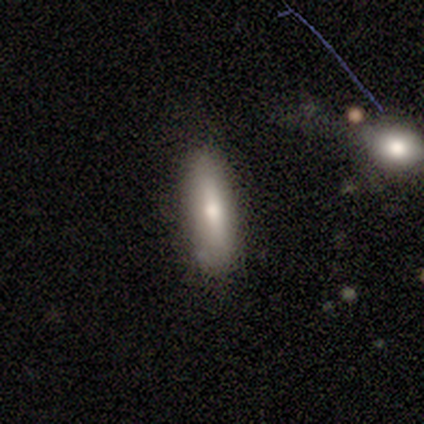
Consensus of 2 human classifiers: Smooth or featured?
  - smooth: 100% *
  - featured or disk: 0%
  - star or artifact: 0%
How rounded?
  - in between: 50% * (tied)
  - cigar-shaped: 50% * (tied)
  - round: 0%
Merging?
  - none: 100% *
  - minor disturbance: 0%
  - major disturbance: 0%
  - merger: 0%